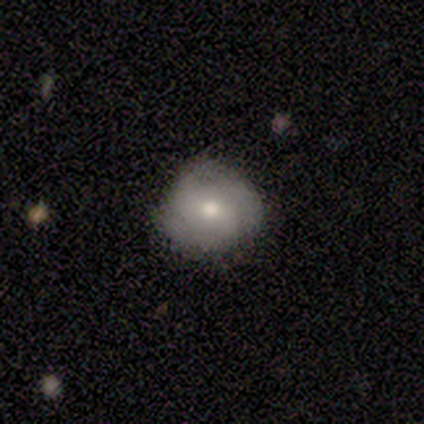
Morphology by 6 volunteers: A smooth galaxy with no disk features (50%, tied with featured or disk) that is round (100%).

Vote fractions:
- Smooth or featured? smooth: 50% (tied) / featured or disk: 50% (tied) / star or artifact: 0%
- How rounded? round: 100% / in between: 0% / cigar-shaped: 0%
- Merging? none: 83% / minor disturbance: 17% / major disturbance: 0% / merger: 0%